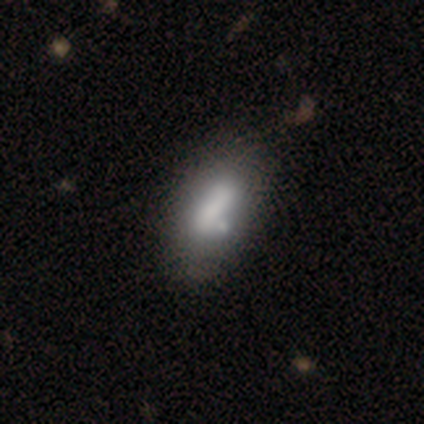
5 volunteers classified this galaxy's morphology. Smooth or featured? featured or disk (60%)
Edge-on disk? no (67%)
Bar? no (100%)
Spiral arms? no (100%)
Bulge size? none (100%)
Merging? none (40%, tied with minor disturbance)